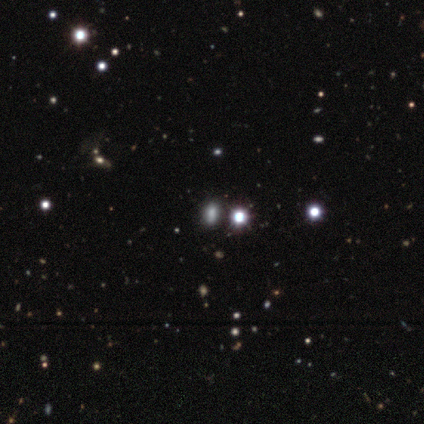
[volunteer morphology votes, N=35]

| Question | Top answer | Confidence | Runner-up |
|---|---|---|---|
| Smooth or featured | star or artifact | 57% | smooth (40%) |